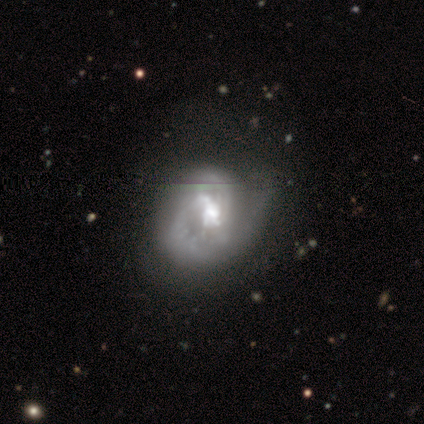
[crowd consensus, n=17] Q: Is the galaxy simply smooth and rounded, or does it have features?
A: featured or disk — 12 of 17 (71%).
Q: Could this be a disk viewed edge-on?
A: no — 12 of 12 (100%).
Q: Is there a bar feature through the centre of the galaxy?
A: weak — 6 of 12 (50%).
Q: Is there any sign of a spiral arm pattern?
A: yes — 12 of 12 (100%).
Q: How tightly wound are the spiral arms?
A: medium — 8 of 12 (67%).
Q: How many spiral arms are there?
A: can't tell — 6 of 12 (50%).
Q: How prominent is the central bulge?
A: moderate — 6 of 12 (50%).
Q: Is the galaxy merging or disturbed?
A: none — 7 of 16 (44%).